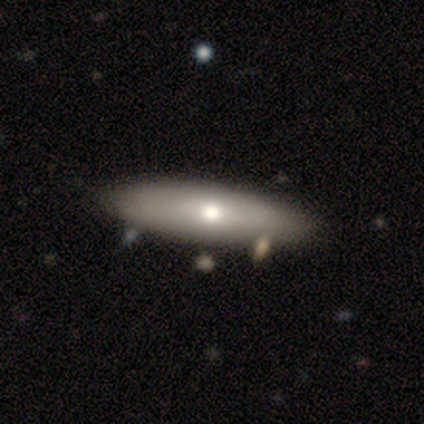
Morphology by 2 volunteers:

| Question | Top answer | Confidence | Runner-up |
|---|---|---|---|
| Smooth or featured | smooth | 100% | — |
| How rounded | in between | 50% | tied: cigar-shaped (50%) |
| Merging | none | 50% | tied: minor disturbance (50%) |